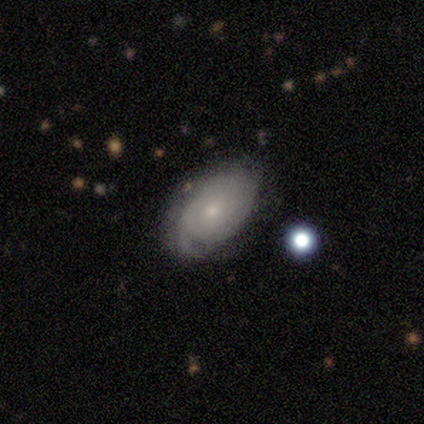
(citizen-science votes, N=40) Q: Smooth or featured?
A: featured or disk (60%); runner-up: smooth (32%)
Q: Edge-on disk?
A: no (96%); runner-up: yes (4%)
Q: Bar?
A: no (78%); runner-up: weak (22%)
Q: Spiral arms?
A: yes (96%); runner-up: no (4%)
Q: Spiral winding?
A: tight (73%); runner-up: medium (14%)
Q: Spiral arm count?
A: can't tell (64%); runner-up: 2 (18%)
Q: Bulge size?
A: small (74%); runner-up: moderate (17%)
Q: Merging?
A: none (59%); runner-up: minor disturbance (35%)